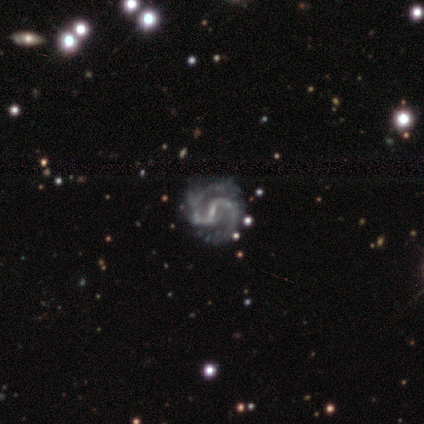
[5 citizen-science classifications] This is clearly a featured or disk galaxy (80%). It is clearly not viewed edge-on (100%). Bar: likely strong (75%). Spiral arm pattern: clearly yes (100%). Spiral arm count: clearly 2 (100%). Spiral winding: possibly medium (50%). Central bulge: possibly small (50%). Merging: clearly none (100%).